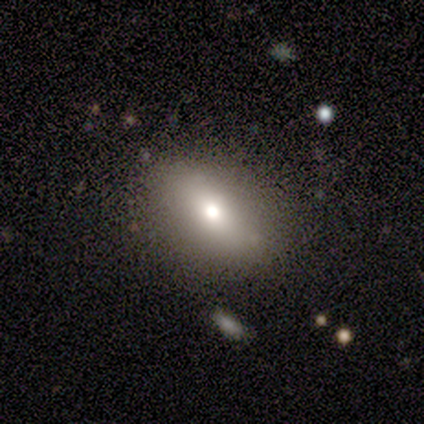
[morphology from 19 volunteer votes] type=smooth (58%); roundness=in between (91%); merging=none (93%).